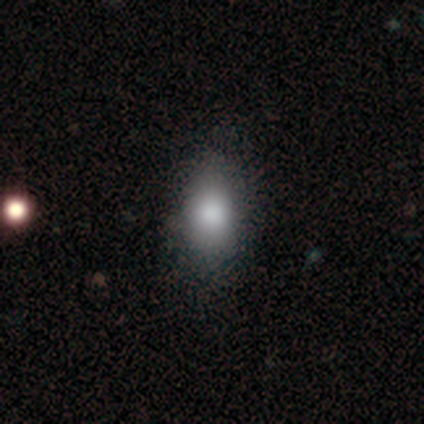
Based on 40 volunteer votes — Morphology: type=smooth (85%); roundness=in between (82%); merging=none (61%).